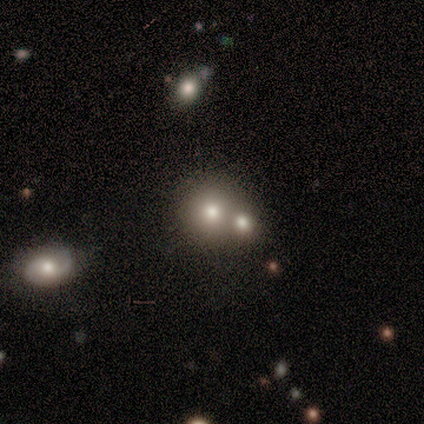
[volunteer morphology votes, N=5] This is clearly a smooth galaxy (100%). How rounded: clearly round (80%). Merging: marginally none (40%, tied with merger).